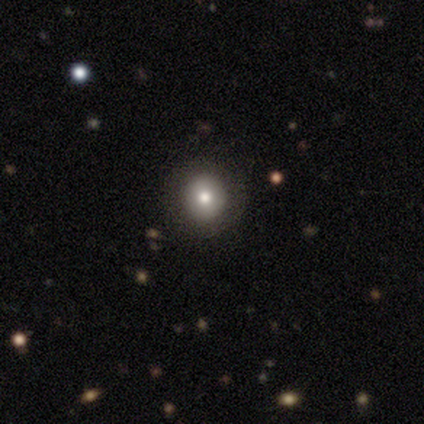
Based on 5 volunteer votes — Smooth or featured? 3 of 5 (60%) said smooth. How rounded? 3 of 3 (100%) said round. Merging? 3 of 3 (100%) said none.